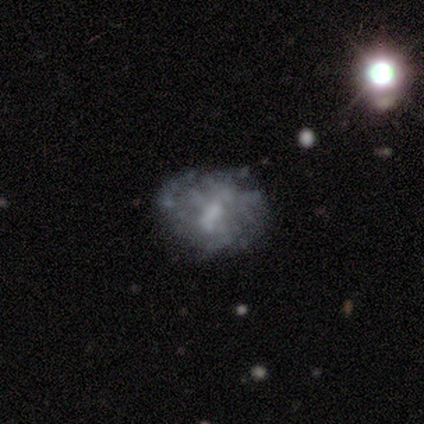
Smooth or featured: featured or disk — 80% (smooth — 20%)
Edge-on disk: no — 100%
Bar: weak — 50% (tied with no — 50%)
Spiral arms: no — 75% (yes — 25%)
Bulge size: none — 50% (moderate — 25%)
Merging: none — 60% (minor disturbance — 40%)